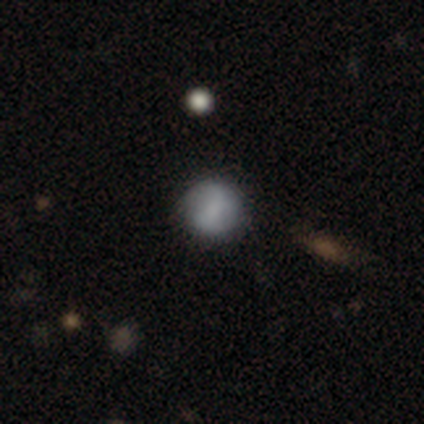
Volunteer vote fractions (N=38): Overall: smooth (58%; featured or disk 32%). How rounded: round (91%). Merging: none (79%).